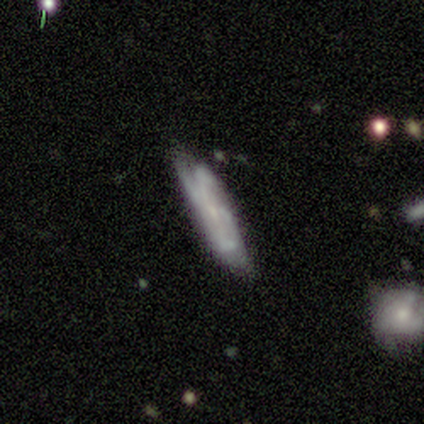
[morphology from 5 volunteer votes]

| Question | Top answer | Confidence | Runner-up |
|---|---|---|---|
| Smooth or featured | featured or disk | 100% | — |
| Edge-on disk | no | 60% | yes (40%) |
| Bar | strong | 33% | tied: weak (33%), no (33%) |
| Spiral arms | yes | 100% | — |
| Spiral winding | medium | 67% | loose (33%) |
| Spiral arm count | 2 | 67% | 4 (33%) |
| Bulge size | small | 100% | — |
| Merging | none | 80% | minor disturbance (20%) |